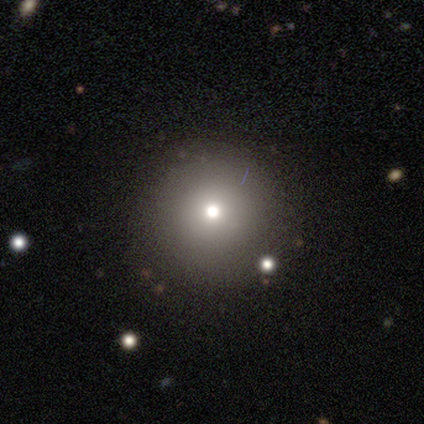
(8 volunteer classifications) Smooth or featured? smooth (75%)
How rounded? round (100%)
Merging? none (83%)